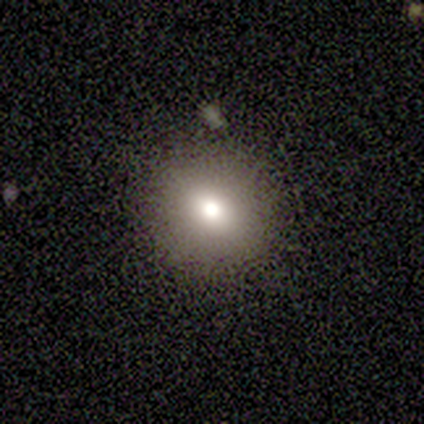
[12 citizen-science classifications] Smooth or featured? smooth (67%)
How rounded? round (62%)
Merging? none (90%)